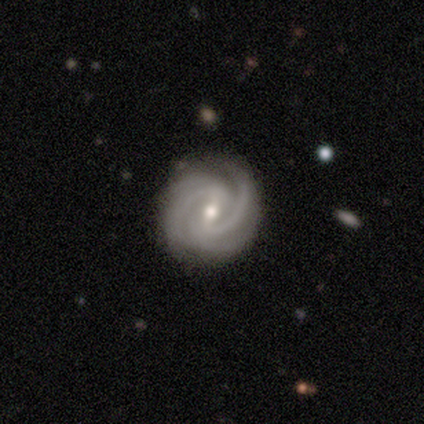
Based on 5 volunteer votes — Morphology: type=featured or disk (100%); edge-on=no (100%); bar=weak (40%, tied with no); spiral arms=yes (100%); winding=tight (60%); arm count=2 (60%); bulge=moderate (80%); merging=none (100%).